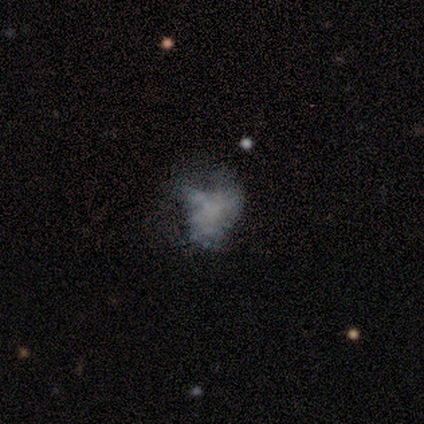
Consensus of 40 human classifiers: Smooth or featured: featured or disk — 65% (smooth — 18%)
Edge-on disk: no — 100%
Bar: no — 96% (weak — 4%)
Spiral arms: no — 92% (yes — 8%)
Bulge size: none — 88% (dominant — 4%)
Merging: major disturbance — 36% (none — 33%)